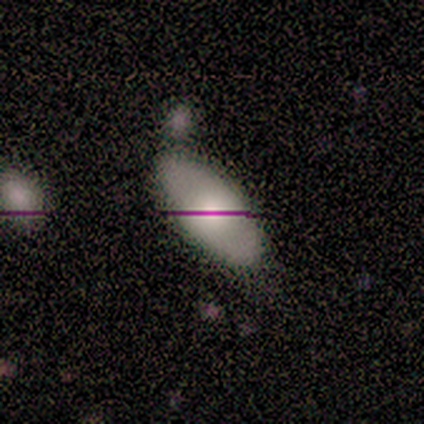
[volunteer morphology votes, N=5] smooth 80%, featured or disk 20%, star or artifact 0%. Down the decision tree: how rounded — in between (100%); merging — none (100%).